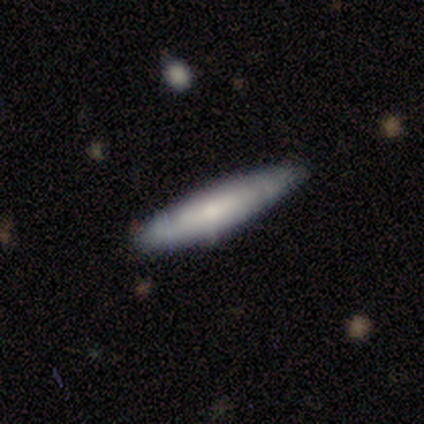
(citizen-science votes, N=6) Q: Smooth or featured?
A: smooth (67%); runner-up: featured or disk (33%)
Q: How rounded?
A: cigar-shaped (100%)
Q: Merging?
A: none (83%); runner-up: minor disturbance (17%)